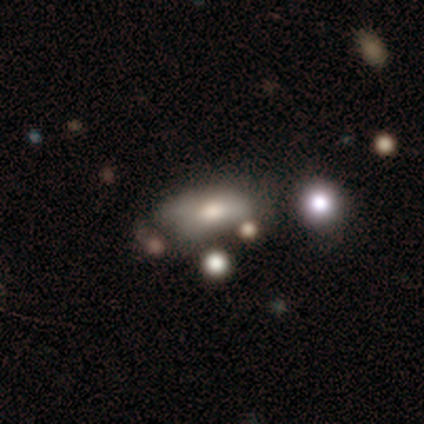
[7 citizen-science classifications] Morphology: type=smooth (43%, tied with star or artifact); roundness=in between (67%); merging=minor disturbance (75%).